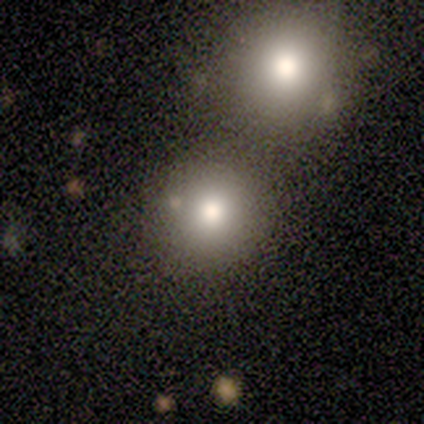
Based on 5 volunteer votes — This appears to be a smooth galaxy with no disk features (80%) that is round (100%). Merging: none (80%).